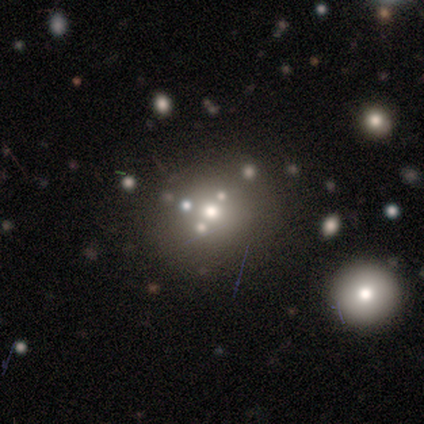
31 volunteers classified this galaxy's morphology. smooth-or-featured: smooth: 48% | featured or disk: 29% | star or artifact: 23%
  how-rounded: round: 80% | in between: 20% | cigar-shaped: 0%
  merging: none: 79% | minor disturbance: 8% | merger: 8% | major disturbance: 4%